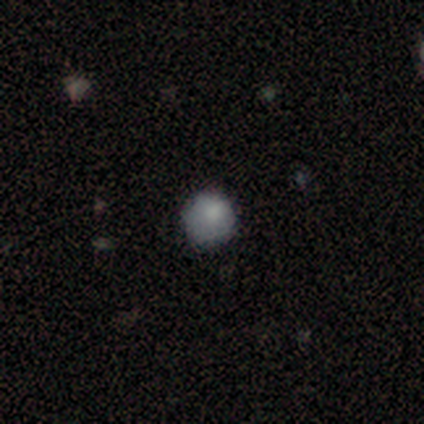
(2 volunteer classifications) A smooth galaxy with no disk features (100%) that is round (100%). Merging: none (100%).